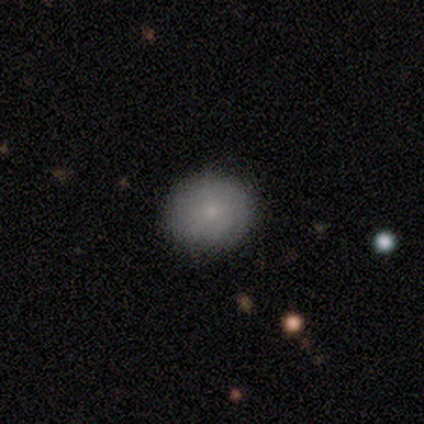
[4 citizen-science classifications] This is likely a smooth galaxy (75%). How rounded: likely round (67%). Merging: clearly none (100%).